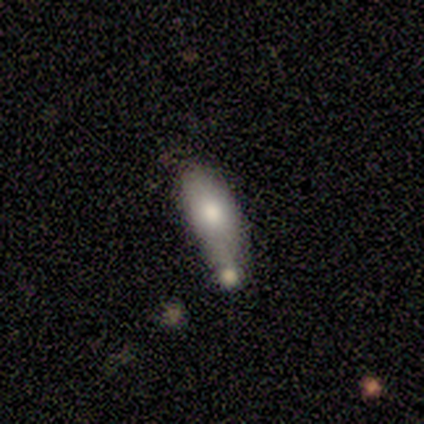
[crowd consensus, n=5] Smooth or featured?
  - smooth: 40% * (tied)
  - star or artifact: 40% * (tied)
  - featured or disk: 20%
How rounded?
  - in between: 50% * (tied)
  - cigar-shaped: 50% * (tied)
  - round: 0%
Merging?
  - none: 67% *
  - minor disturbance: 33%
  - major disturbance: 0%
  - merger: 0%